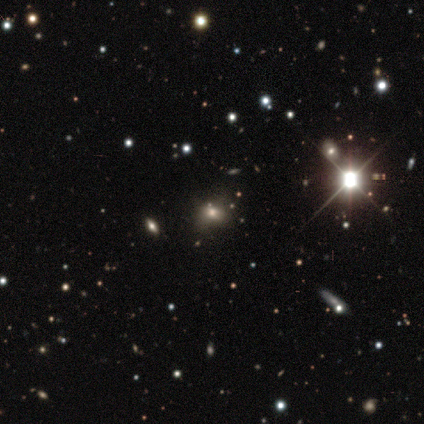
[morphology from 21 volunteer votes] type=smooth (48%); roundness=round (50%, tied with in between); merging=none (53%).